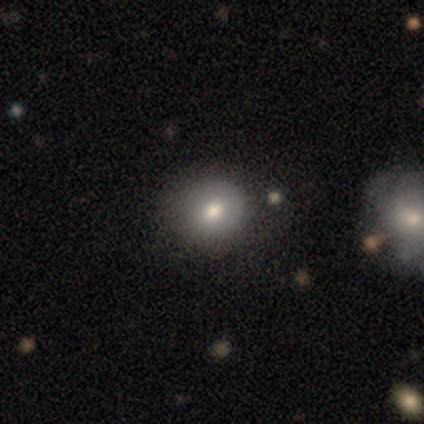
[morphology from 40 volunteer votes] Q: Smooth or featured?
A: smooth (78%); runner-up: featured or disk (15%)
Q: How rounded?
A: round (87%); runner-up: in between (13%)
Q: Merging?
A: none (73%); runner-up: minor disturbance (19%)